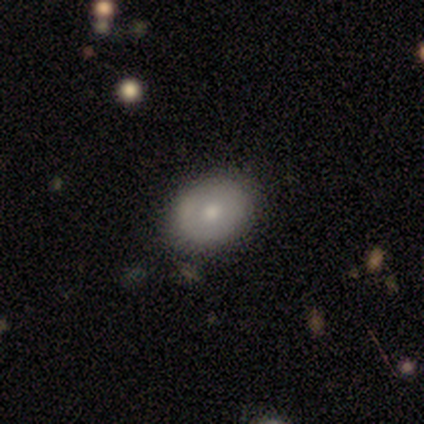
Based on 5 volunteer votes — Overall: featured or disk (60%; smooth 40%). Edge-on disk: no (100%). Bar: no (100%). Spiral arms: no (100%). Bulge size: small (67%; moderate 33%). Merging: none (80%).